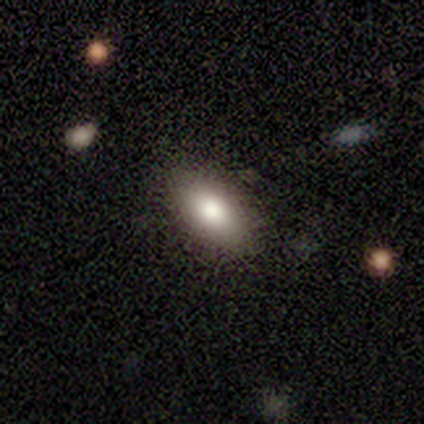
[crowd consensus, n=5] A smooth galaxy with no disk features (60%) that is in between round and cigar-shaped (100%).

Vote fractions:
- Smooth or featured? smooth: 60% / featured or disk: 40% / star or artifact: 0%
- How rounded? in between: 100% / round: 0% / cigar-shaped: 0%
- Merging? none: 100% / minor disturbance: 0% / major disturbance: 0% / merger: 0%